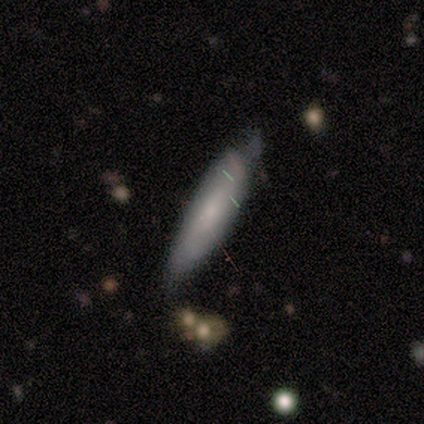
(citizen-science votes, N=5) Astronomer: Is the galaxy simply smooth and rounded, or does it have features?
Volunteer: smooth — 60%.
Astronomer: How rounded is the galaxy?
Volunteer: cigar-shaped — 67%.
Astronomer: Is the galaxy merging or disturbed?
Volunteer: minor disturbance — 50%.